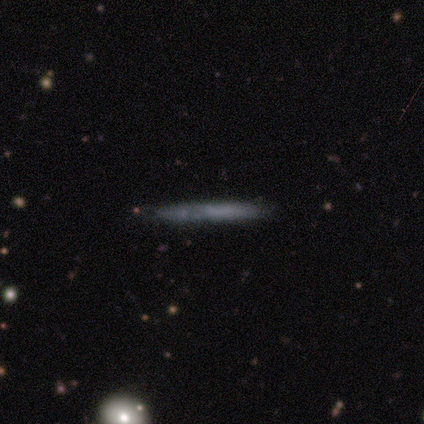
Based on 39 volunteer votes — A smooth galaxy with no disk features (51%) that is cigar-shaped (100%). Merging: none (77%).